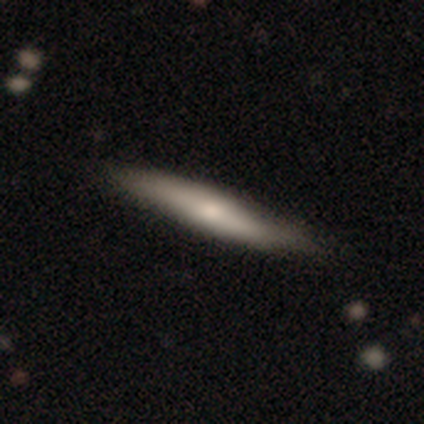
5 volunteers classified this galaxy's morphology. A smooth galaxy with no disk features (100%) that is cigar-shaped (100%). Merging: none (100%).